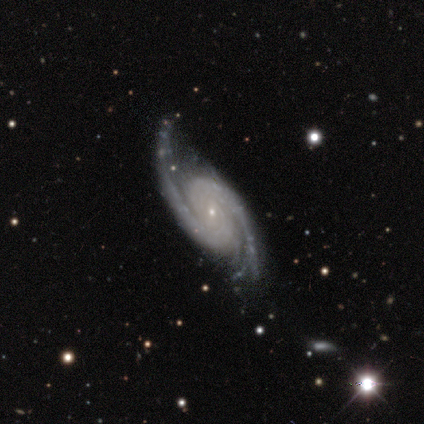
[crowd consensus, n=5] This is clearly a featured or disk galaxy (80%). It is likely not viewed edge-on (75%). Bar: clearly no (100%). Spiral arm pattern: clearly yes (100%). Spiral arm count: clearly 2 (100%). Spiral winding: likely tight (67%). Central bulge: clearly small (100%). Merging: possibly none (50%).